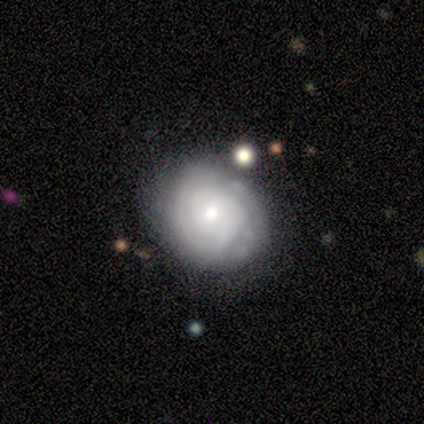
Overall: featured or disk (77%). Edge-on disk: no (100%). Bar: no (70%). Spiral arms: yes (80%). Spiral arm count: 2 (38%; 1 25%). Spiral winding: tight (100%). Bulge size: moderate (60%; small 30%). Merging: none (69%).